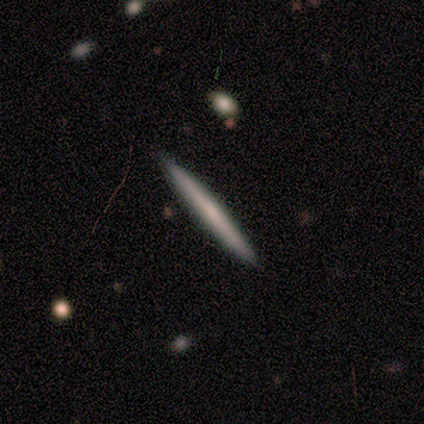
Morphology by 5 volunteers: type=smooth (60%); roundness=cigar-shaped (100%); merging=none (100%).